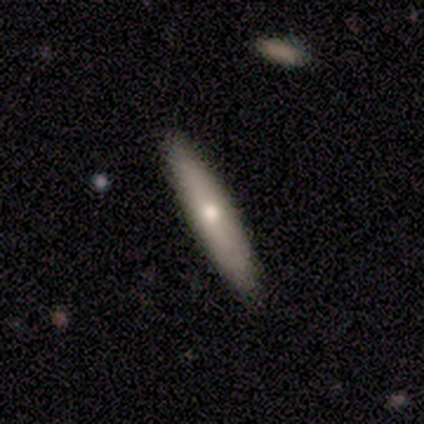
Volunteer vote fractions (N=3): Morphology: type=smooth (67%); roundness=cigar-shaped (100%); merging=none (100%).